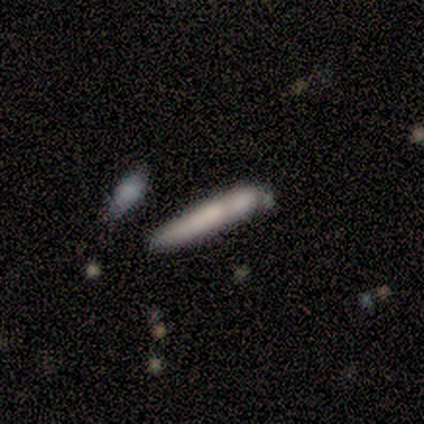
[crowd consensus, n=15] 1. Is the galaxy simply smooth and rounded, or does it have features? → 67% smooth, 33% featured or disk, 0% star or artifact.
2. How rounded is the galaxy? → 100% cigar-shaped, 0% round, 0% in between.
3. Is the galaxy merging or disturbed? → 53% none, 27% merger, 13% minor disturbance, 7% major disturbance.